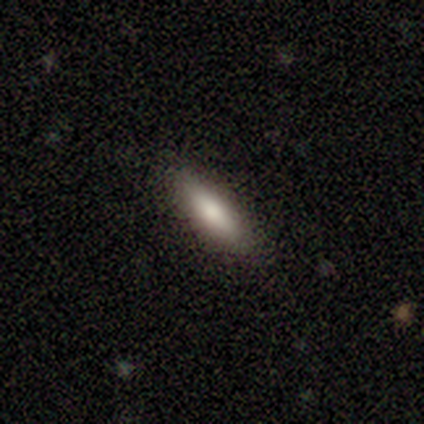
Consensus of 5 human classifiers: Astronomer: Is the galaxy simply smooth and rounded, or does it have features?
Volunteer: smooth — 60% (runner-up: featured or disk, 40%).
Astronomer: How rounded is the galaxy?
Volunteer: cigar-shaped — 67%.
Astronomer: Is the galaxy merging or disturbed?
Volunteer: none — 100%.